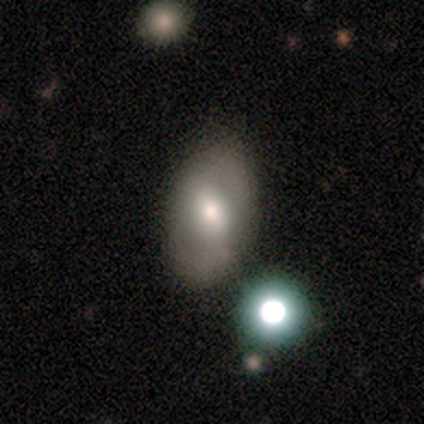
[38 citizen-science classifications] Smooth or featured? 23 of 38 (61%) said smooth. How rounded? 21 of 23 (91%) said in between. Merging? 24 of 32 (75%) said none.